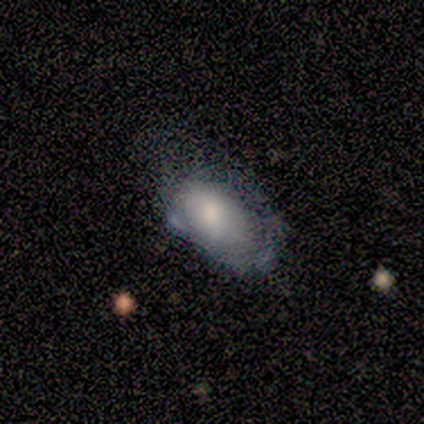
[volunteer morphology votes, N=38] type=smooth (55%); roundness=in between (100%); merging=minor disturbance (41%).